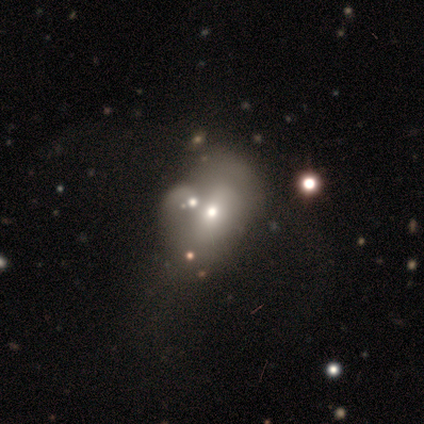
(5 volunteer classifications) Q: Smooth or featured?
A: smooth (60%); runner-up: featured or disk (20%)
Q: How rounded?
A: in between (100%)
Q: Merging?
A: merger (50%); runner-up: none (25%)